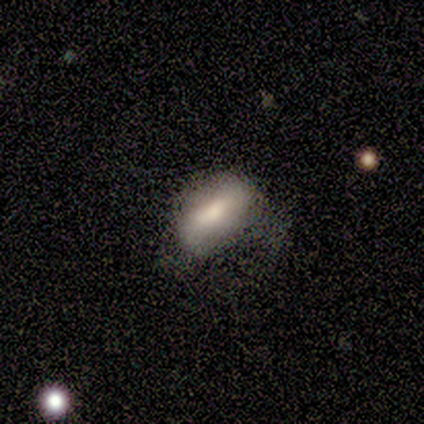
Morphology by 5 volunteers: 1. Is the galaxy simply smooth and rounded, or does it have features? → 80% smooth, 20% featured or disk, 0% star or artifact.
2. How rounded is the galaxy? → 100% in between, 0% round, 0% cigar-shaped.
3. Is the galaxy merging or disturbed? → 80% none, 20% minor disturbance, 0% major disturbance, 0% merger.